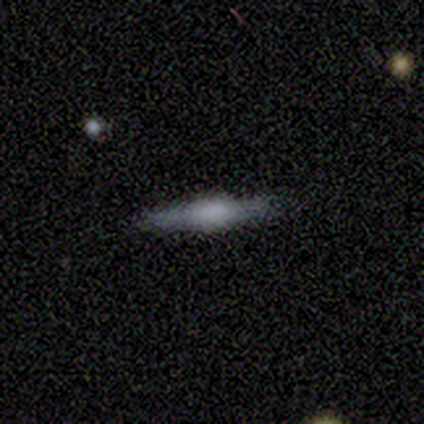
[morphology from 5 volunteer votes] This appears to be a smooth galaxy with no disk features (60%) that is cigar-shaped (100%). Merging: none (100%).